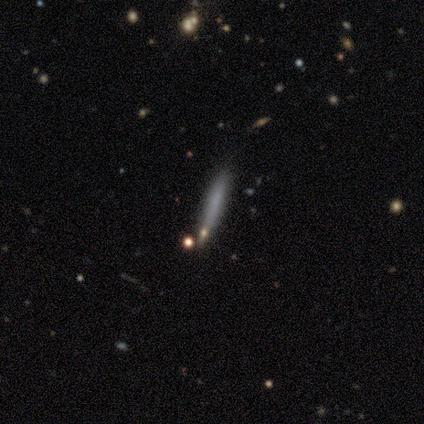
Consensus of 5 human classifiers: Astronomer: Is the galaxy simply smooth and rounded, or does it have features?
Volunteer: smooth — 80%.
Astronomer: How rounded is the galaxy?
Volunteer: cigar-shaped — 100%.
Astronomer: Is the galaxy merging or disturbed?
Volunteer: none — 80%.